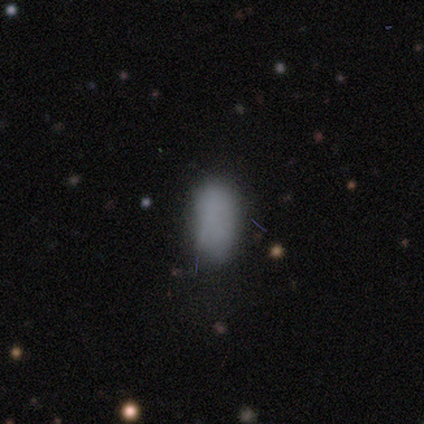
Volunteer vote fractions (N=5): Morphology: type=smooth (100%); roundness=in between (100%); merging=none (100%).